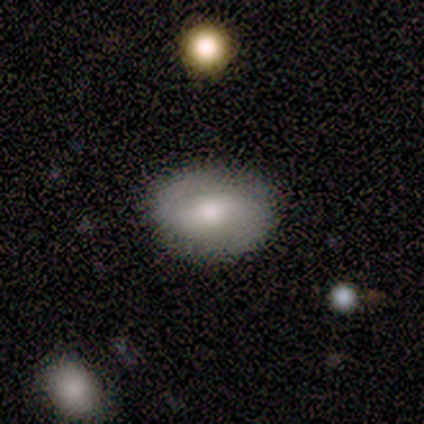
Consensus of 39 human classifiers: featured or disk 46%, smooth 44%, star or artifact 10%. Down the decision tree: edge-on disk — no (100%); bar — weak (50%); spiral arms — yes (72%); spiral arm count — 2 (85%); spiral winding — medium (62%); bulge size — moderate (61%); merging — none (89%).